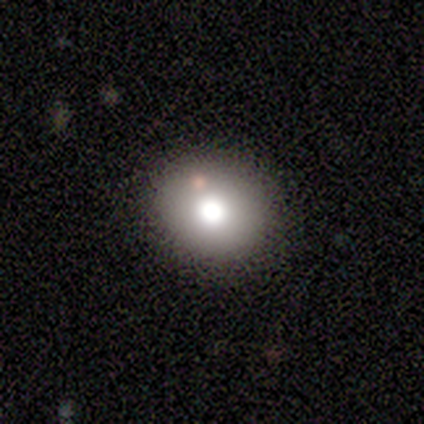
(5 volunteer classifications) Q: Smooth or featured?
A: smooth (80%); runner-up: featured or disk (20%)
Q: How rounded?
A: round (100%)
Q: Merging?
A: none (80%); runner-up: minor disturbance (20%)